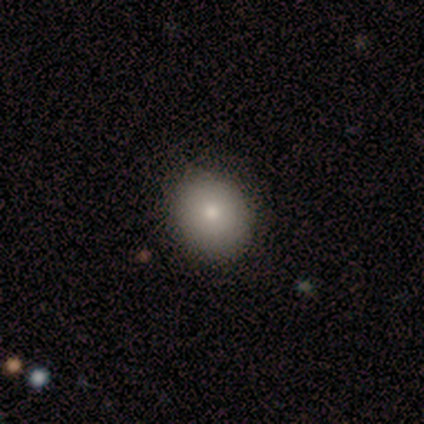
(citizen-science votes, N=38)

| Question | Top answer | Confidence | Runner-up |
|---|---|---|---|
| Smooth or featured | smooth | 87% | featured or disk (8%) |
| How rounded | round | 76% | in between (24%) |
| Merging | none | 89% | minor disturbance (8%) |